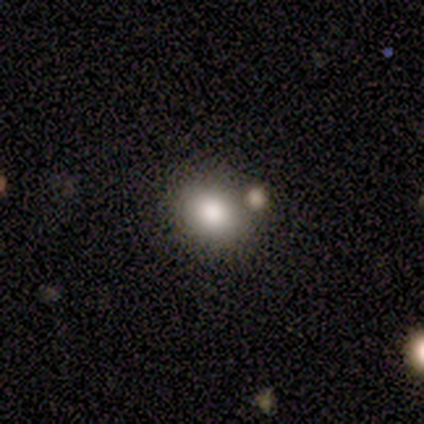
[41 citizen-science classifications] smooth_or_featured: smooth (p=0.80) [alt: featured or disk p=0.12]
how_rounded: in between (p=0.52) [alt: round p=0.48]
merging: none (p=0.82) [alt: merger p=0.13]